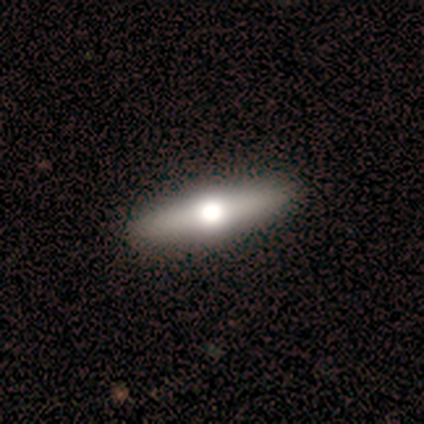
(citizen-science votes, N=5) Q: Smooth or featured?
A: featured or disk (60%); runner-up: smooth (20%)
Q: Edge-on disk?
A: yes (100%)
Q: Edge-on bulge?
A: rounded (100%)
Q: Merging?
A: none (100%)